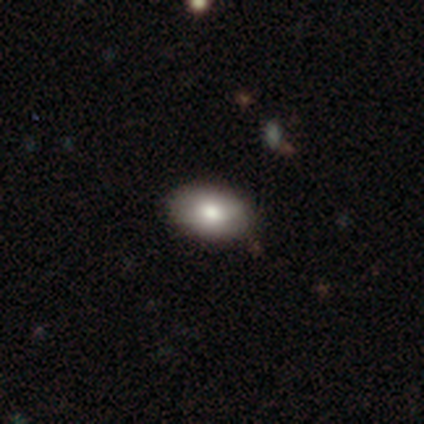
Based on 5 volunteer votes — Morphology: type=smooth (80%); roundness=in between (75%); merging=none (100%).